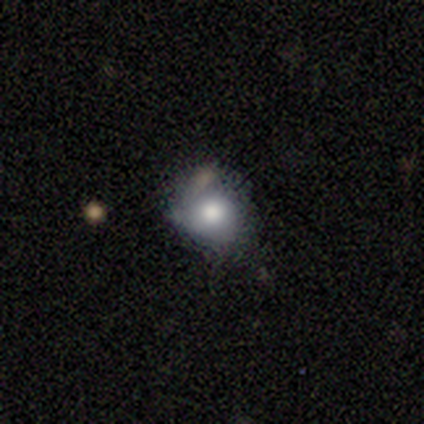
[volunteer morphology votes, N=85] type=smooth (78%); roundness=round (77%); merging=none (52%).